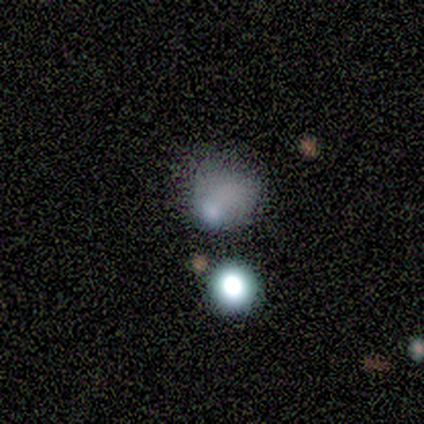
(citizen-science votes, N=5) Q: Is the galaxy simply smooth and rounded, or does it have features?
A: smooth — 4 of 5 (80%).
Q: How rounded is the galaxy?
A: round — 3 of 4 (75%).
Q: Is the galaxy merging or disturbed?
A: minor disturbance — 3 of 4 (75%).